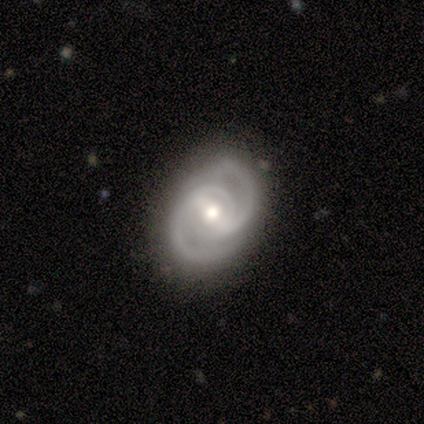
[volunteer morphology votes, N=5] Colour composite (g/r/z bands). It shows a featured or disk galaxy (80%) with a strong bar (50%, tied with weak), 2 (100%) medium (75%) spiral arms (100%) and a moderate central bulge (100%). Merging: none (75%).